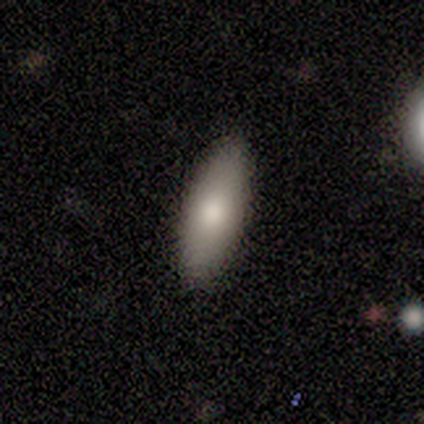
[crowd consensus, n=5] Q: Smooth or featured?
A: smooth (100%)
Q: How rounded?
A: in between (80%); runner-up: cigar-shaped (20%)
Q: Merging?
A: none (80%); runner-up: minor disturbance (20%)